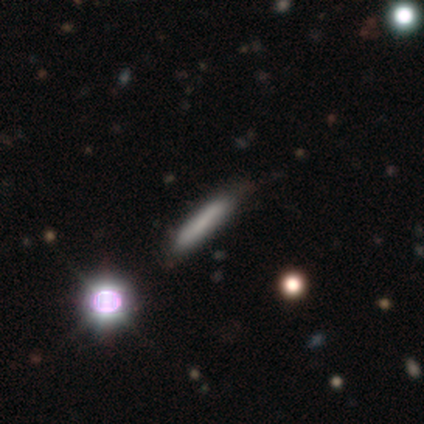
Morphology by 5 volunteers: A smooth galaxy with no disk features (60%) that is cigar-shaped (100%). Merging: none (75%).